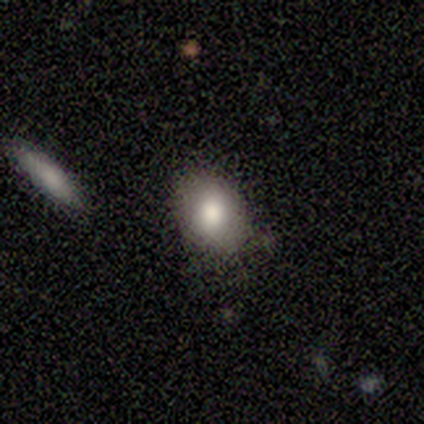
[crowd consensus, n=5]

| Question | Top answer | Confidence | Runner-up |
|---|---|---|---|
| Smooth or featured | smooth | 100% | — |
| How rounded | in between | 60% | round (40%) |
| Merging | none | 60% | minor disturbance (40%) |